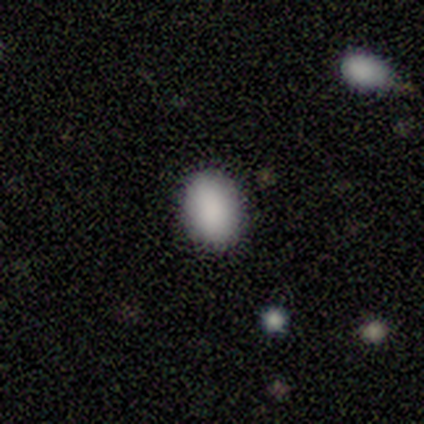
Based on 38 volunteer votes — Overall: smooth (87%). How rounded: in between (76%). Merging: none (88%).